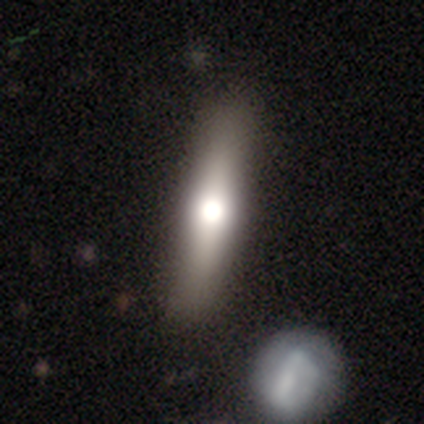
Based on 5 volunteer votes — smooth-or-featured: featured or disk: 60% | smooth: 40% | star or artifact: 0%
  disk-edge-on: yes: 100% | no: 0%
    edge-on-bulge: rounded: 100% | boxy: 0% | none: 0%
  merging: none: 100% | minor disturbance: 0% | major disturbance: 0% | merger: 0%